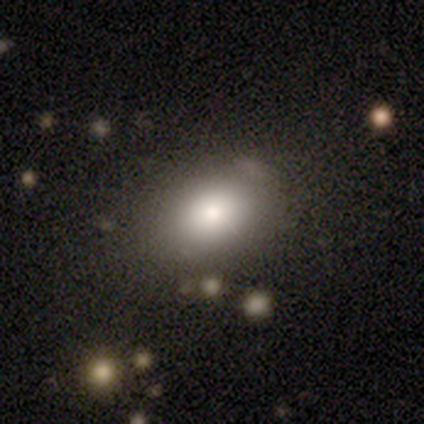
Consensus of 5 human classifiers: This appears to be a smooth galaxy with no disk features (60%) that is round (67%). Merging: none (100%).